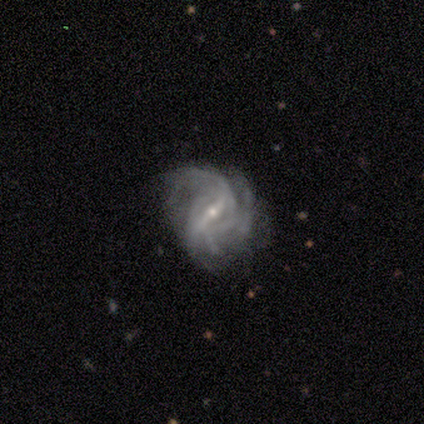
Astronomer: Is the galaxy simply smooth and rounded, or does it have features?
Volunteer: featured or disk — 89%.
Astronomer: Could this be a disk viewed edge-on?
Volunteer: no — 100%.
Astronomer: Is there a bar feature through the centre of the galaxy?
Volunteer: strong — 88%.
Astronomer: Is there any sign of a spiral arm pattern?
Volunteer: yes — 100%.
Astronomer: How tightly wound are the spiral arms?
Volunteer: medium — 50% (runner-up: loose, 38%).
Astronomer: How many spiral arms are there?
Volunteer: can't tell — 38% (runner-up: 4, 25%).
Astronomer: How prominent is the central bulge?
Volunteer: small — 100%.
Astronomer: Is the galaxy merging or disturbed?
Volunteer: none — 67%.